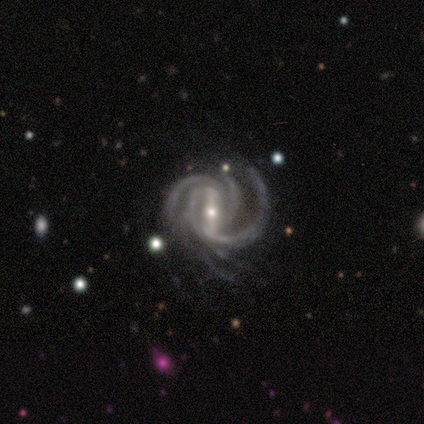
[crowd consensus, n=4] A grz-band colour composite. It shows a featured or disk galaxy (100%) with a strong bar (100%), tight (75%) spiral arms (100%) and a moderate central bulge (50%, tied with small). Merging: major disturbance (50%).